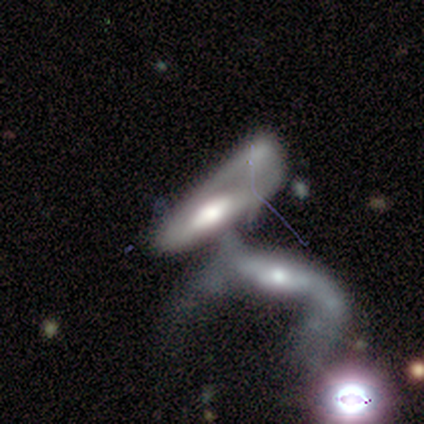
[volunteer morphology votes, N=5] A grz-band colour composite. It shows a featured or disk galaxy (60%) with a weak bar (50%, tied with no), 1 (100%) loose (100%) spiral arms (50%, tied with no) and a large central bulge (50%, tied with moderate). Merging: merger (100%).